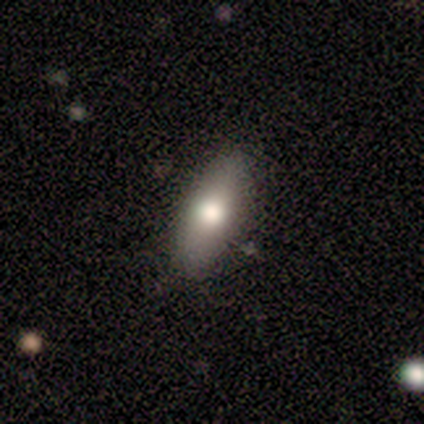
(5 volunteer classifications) This is likely a smooth galaxy (60%). How rounded: clearly in between (100%). Merging: clearly none (100%).